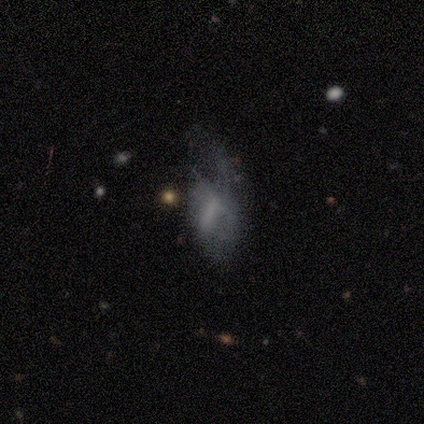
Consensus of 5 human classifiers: Q: Smooth or featured?
A: featured or disk (60%); runner-up: smooth (40%)
Q: Edge-on disk?
A: no (100%)
Q: Bar?
A: weak (67%); runner-up: no (33%)
Q: Spiral arms?
A: no (67%); runner-up: yes (33%)
Q: Bulge size?
A: moderate (67%); runner-up: none (33%)
Q: Merging?
A: minor disturbance (40%); tied with: major disturbance (40%)